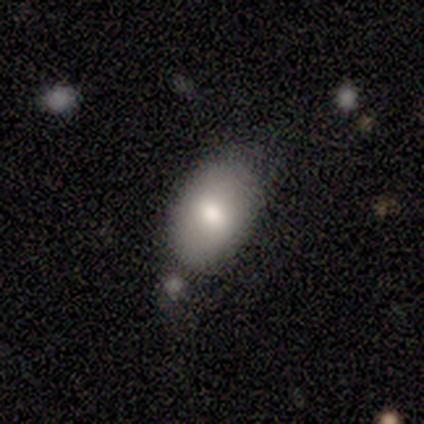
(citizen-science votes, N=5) smooth 80%, featured or disk 20%, star or artifact 0%. Down the decision tree: how rounded — in between (100%); merging — none (60%).